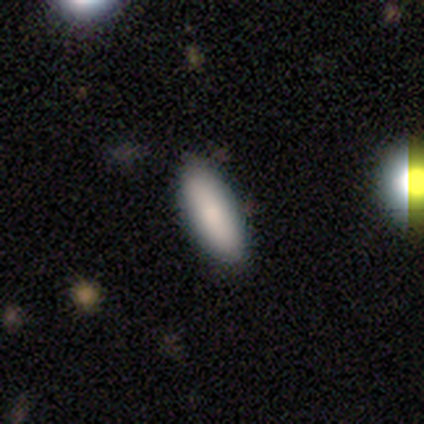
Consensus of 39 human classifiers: Volunteers were most divided on "smooth or featured": smooth: 74%, featured or disk: 13%, star or artifact: 13%. More confident: merging — none (91%); how rounded — in between (83%).